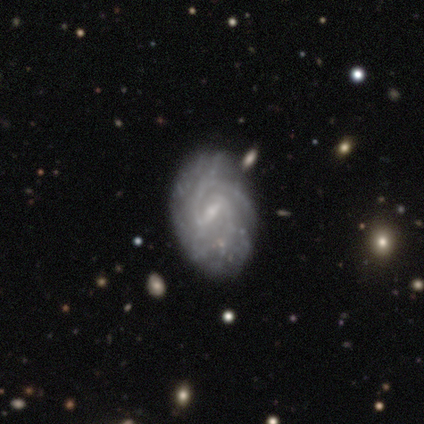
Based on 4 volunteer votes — Smooth or featured: featured or disk — 100%
Edge-on disk: no — 75% (yes — 25%)
Bar: weak — 100%
Spiral arms: yes — 100%
Spiral winding: medium — 67% (tight — 33%)
Spiral arm count: 2 — 67% (can't tell — 33%)
Bulge size: small — 100%
Merging: none — 100%